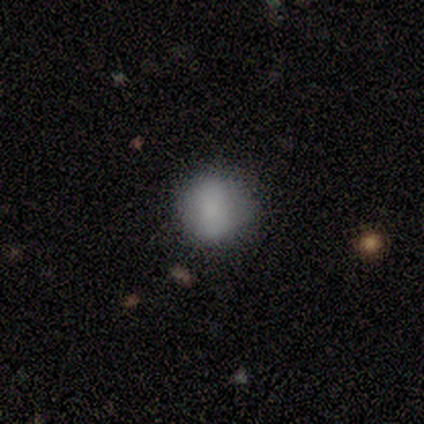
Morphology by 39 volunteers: Q: Smooth or featured?
A: smooth (79%); runner-up: star or artifact (13%)
Q: How rounded?
A: round (84%); runner-up: in between (13%)
Q: Merging?
A: none (82%); runner-up: minor disturbance (15%)